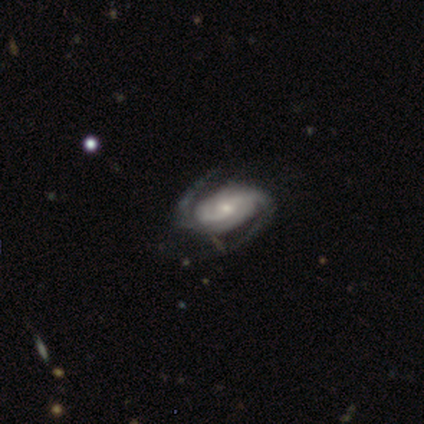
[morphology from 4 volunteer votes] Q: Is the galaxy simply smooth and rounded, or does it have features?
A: featured or disk — 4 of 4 (100%).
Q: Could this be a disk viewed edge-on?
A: no — 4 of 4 (100%).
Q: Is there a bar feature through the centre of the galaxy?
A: no — 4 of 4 (100%).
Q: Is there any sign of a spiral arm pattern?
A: yes — 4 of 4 (100%).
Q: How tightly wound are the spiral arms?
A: tight — 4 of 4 (100%).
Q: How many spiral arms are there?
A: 2 — 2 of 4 (50%, tied with can't tell).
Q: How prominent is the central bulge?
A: moderate — 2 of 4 (50%, tied with small).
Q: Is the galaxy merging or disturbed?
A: none — 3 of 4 (75%).